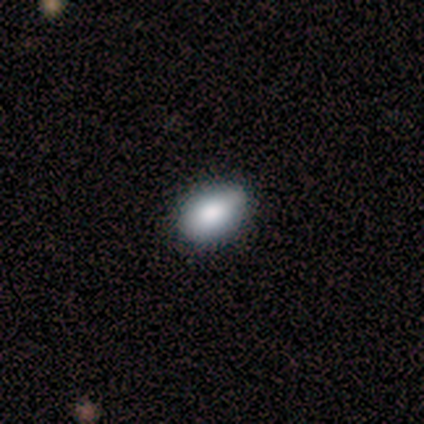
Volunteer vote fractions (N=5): Overall: smooth (100%). How rounded: in between (80%). Merging: none (100%).